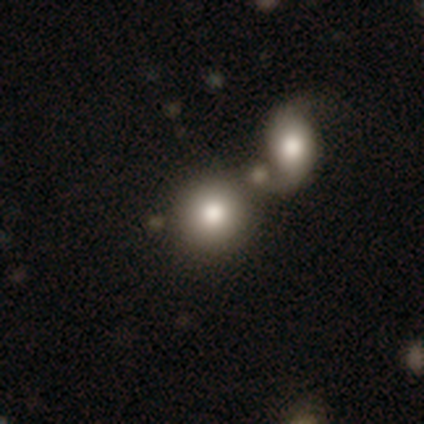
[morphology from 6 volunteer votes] Smooth or featured? 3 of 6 (50%) said smooth. How rounded? 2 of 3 (67%) said in between. Merging? 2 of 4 (50%) said none.